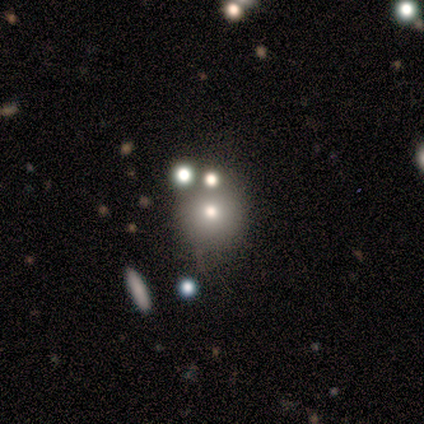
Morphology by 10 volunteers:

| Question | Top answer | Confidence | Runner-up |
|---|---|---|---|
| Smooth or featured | smooth | 60% | star or artifact (30%) |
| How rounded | round | 83% | in between (17%) |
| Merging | none | 71% | minor disturbance (14%) |